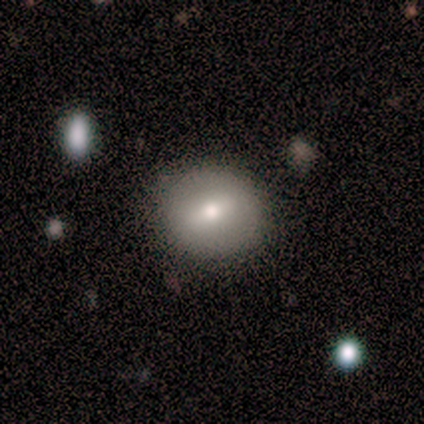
Smooth or featured? smooth (58%)
How rounded? round (57%)
Merging? none (100%)